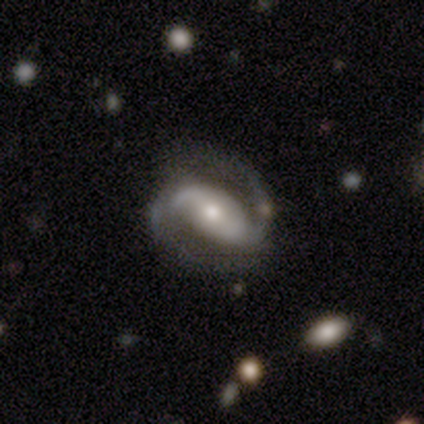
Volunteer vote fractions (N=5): featured or disk 100%, smooth 0%, star or artifact 0%. Down the decision tree: edge-on disk — no (100%); bar — no (60%); spiral arms — yes (80%); spiral arm count — 2 (100%); spiral winding — medium (50%, tied with loose); bulge size — moderate (80%); merging — none (100%).